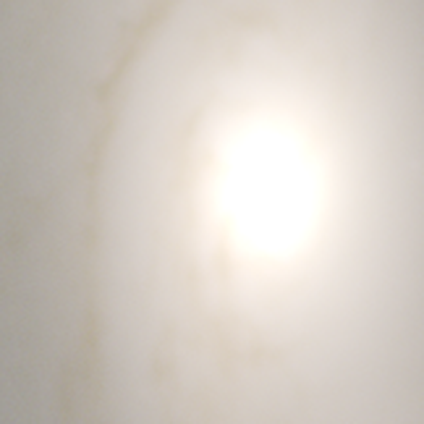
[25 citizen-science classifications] Smooth or featured?
  - star or artifact: 72% *
  - smooth: 16%
  - featured or disk: 12%